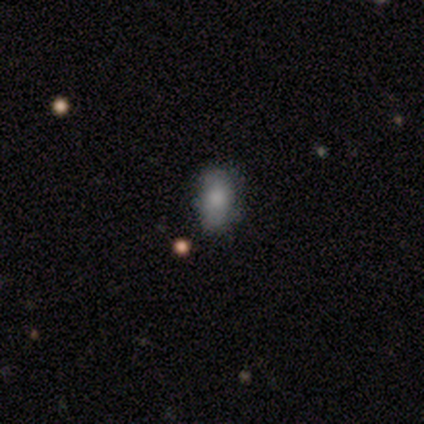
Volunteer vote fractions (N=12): This is clearly a smooth galaxy (100%). How rounded: likely in between (75%). Merging: clearly none (92%).